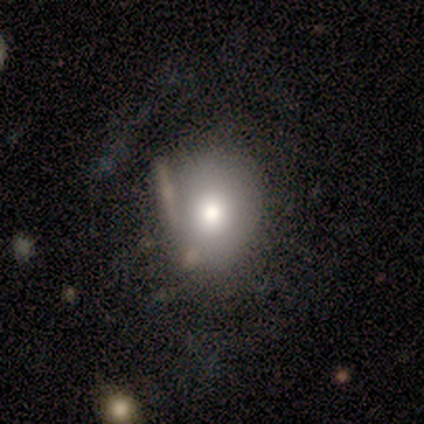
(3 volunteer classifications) smooth-or-featured: smooth: 100% | featured or disk: 0% | star or artifact: 0%
  how-rounded: in between: 67% | round: 33% | cigar-shaped: 0%
  merging: none: 67% | major disturbance: 33% | minor disturbance: 0% | merger: 0%